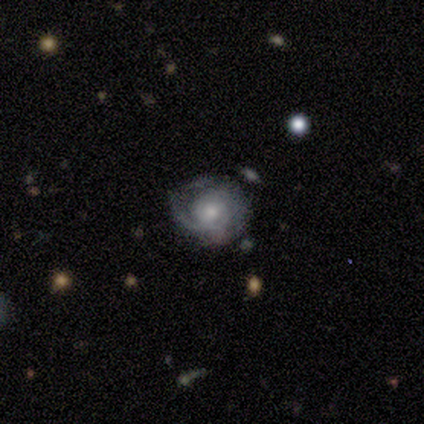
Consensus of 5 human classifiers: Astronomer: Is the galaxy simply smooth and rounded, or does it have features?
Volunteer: smooth — 80%.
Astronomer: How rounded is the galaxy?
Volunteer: round — 75%.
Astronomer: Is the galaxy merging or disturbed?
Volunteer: minor disturbance — 60%.